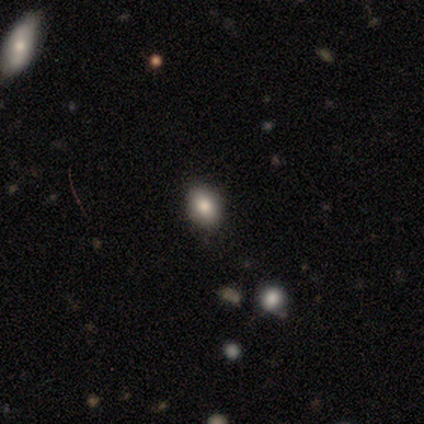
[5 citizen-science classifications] smooth_or_featured: smooth (p=0.80) [alt: featured or disk p=0.20]
how_rounded: in between (p=0.75) [alt: round p=0.25]
merging: none (p=1.00)